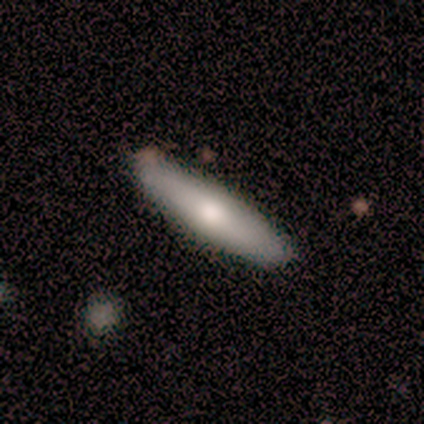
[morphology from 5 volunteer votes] Smooth or featured?
  - smooth: 60% *
  - featured or disk: 40%
  - star or artifact: 0%
How rounded?
  - cigar-shaped: 100% *
  - round: 0%
  - in between: 0%
Merging?
  - none: 100% *
  - minor disturbance: 0%
  - major disturbance: 0%
  - merger: 0%